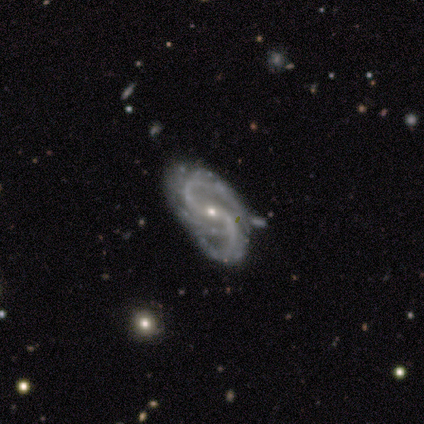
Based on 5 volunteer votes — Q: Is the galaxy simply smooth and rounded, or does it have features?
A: featured or disk — 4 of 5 (80%).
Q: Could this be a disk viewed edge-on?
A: no — 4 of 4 (100%).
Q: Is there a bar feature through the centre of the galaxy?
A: no — 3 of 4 (75%).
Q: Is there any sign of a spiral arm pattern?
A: yes — 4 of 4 (100%).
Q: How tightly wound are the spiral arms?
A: tight — 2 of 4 (50%, tied with medium).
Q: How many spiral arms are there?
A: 2 — 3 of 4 (75%).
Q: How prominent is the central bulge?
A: small — 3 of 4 (75%).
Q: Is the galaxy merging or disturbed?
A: none — 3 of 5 (60%).